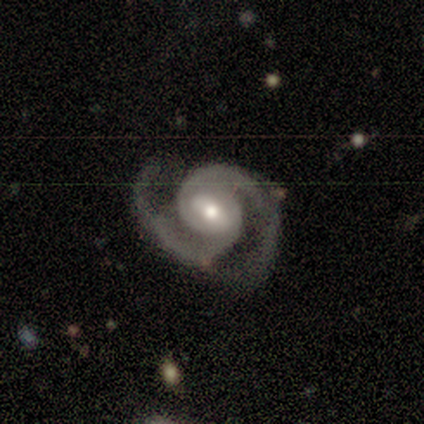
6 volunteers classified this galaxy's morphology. smooth-or-featured: featured or disk: 100% | smooth: 0% | star or artifact: 0%
  disk-edge-on: no: 100% | yes: 0%
    bar: no: 50% | weak: 33% | strong: 17%
    has-spiral-arms: yes: 100% | no: 0%
      spiral-winding: tight: 50% | medium: 33% | loose: 17%
      spiral-arm-count: 2: 83% | more than 4: 17% | 1: 0% | 3: 0% | 4: 0% | can't tell: 0%
    bulge-size: moderate: 67% | dominant: 17% | small: 17% | large: 0% | none: 0%
  merging: none: 67% | minor disturbance: 33% | major disturbance: 0% | merger: 0%